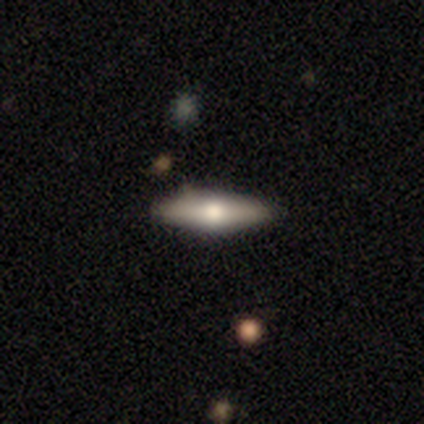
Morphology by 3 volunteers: Smooth or featured?
  - featured or disk: 67% *
  - smooth: 33%
  - star or artifact: 0%
Edge-on disk?
  - yes: 100% *
  - no: 0%
Edge-on bulge?
  - rounded: 100% *
  - boxy: 0%
  - none: 0%
Merging?
  - none: 67% *
  - minor disturbance: 33%
  - major disturbance: 0%
  - merger: 0%